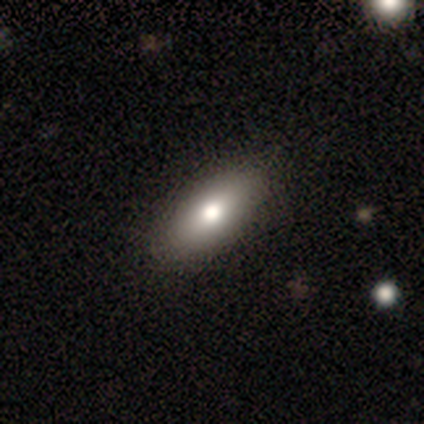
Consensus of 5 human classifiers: Morphology: type=smooth (80%); roundness=in between (50%, tied with cigar-shaped); merging=none (100%).